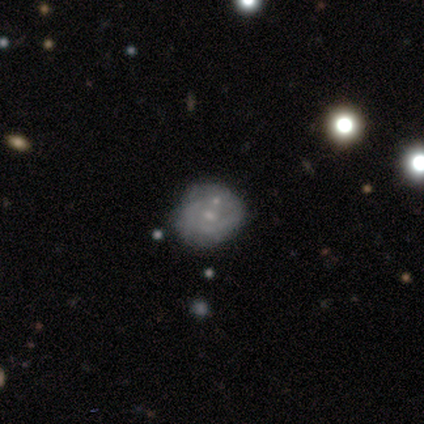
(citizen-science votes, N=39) Overall: featured or disk (67%). Edge-on disk: no (100%). Bar: no (77%). Spiral arms: yes (58%; no 42%). Spiral arm count: can't tell (73%). Spiral winding: tight (60%; medium 27%). Bulge size: small (62%; moderate 31%). Merging: none (31%; minor disturbance 20%).